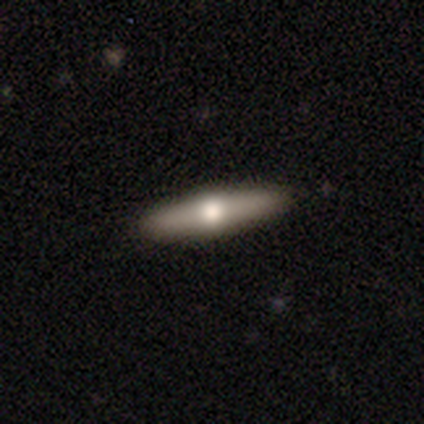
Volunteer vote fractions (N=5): Smooth or featured?
  - featured or disk: 100% *
  - smooth: 0%
  - star or artifact: 0%
Edge-on disk?
  - yes: 80% *
  - no: 20%
Edge-on bulge?
  - rounded: 100% *
  - boxy: 0%
  - none: 0%
Merging?
  - none: 100% *
  - minor disturbance: 0%
  - major disturbance: 0%
  - merger: 0%